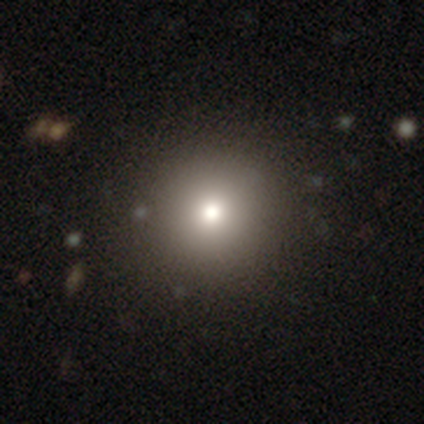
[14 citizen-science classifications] smooth_or_featured: smooth (p=0.79) [alt: featured or disk p=0.21]
how_rounded: round (p=0.91) [alt: in between p=0.09]
merging: none (p=1.00)